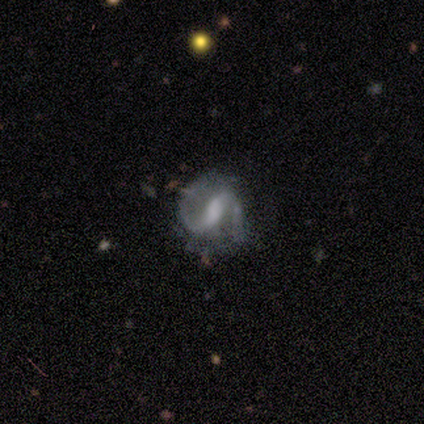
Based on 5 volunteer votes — This is clearly a featured or disk galaxy (100%). It is clearly not viewed edge-on (80%). Bar: likely strong (75%). Spiral arm pattern: clearly yes (100%). Spiral arm count: clearly 2 (100%). Spiral winding: possibly loose (50%). Central bulge: likely moderate (75%). Merging: clearly none (80%).